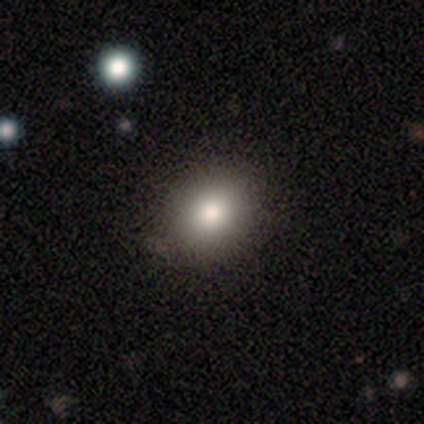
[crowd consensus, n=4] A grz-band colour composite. It shows a smooth galaxy with no disk features (100%) that is round (75%). Merging: none (100%).